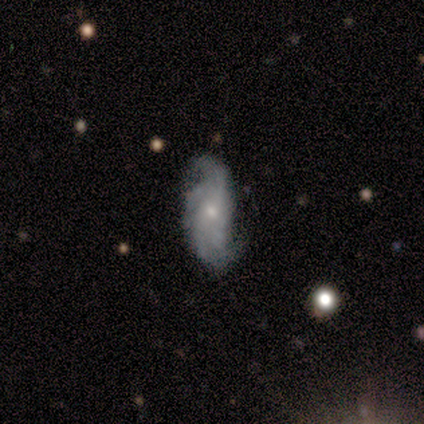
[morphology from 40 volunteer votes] Smooth or featured? featured or disk (72%)
Edge-on disk? no (97%)
Bar? no (68%)
Spiral arms? yes (86%)
Spiral winding? medium (50%)
Spiral arm count? 2 (33%)
Bulge size? small (68%)
Merging? none (42%)